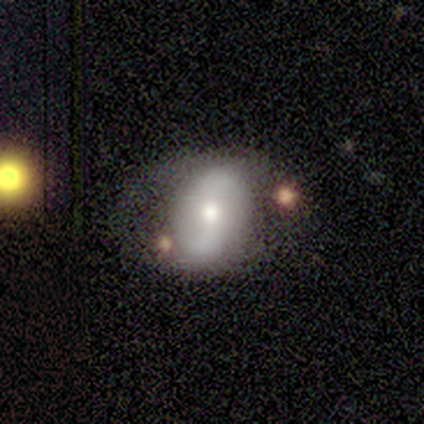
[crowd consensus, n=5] Smooth or featured? featured or disk (60%)
Edge-on disk? no (100%)
Bar? no (67%)
Spiral arms? yes (100%)
Spiral winding? loose (67%)
Spiral arm count? 2 (100%)
Bulge size? moderate (67%)
Merging? minor disturbance (75%)